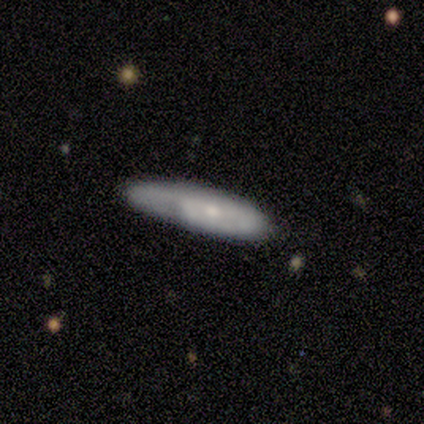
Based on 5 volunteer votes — featured or disk 60%, smooth 40%, star or artifact 0%. Down the decision tree: edge-on disk — yes (67%); edge-on bulge — none (100%); merging — none (40%, tied with major disturbance).